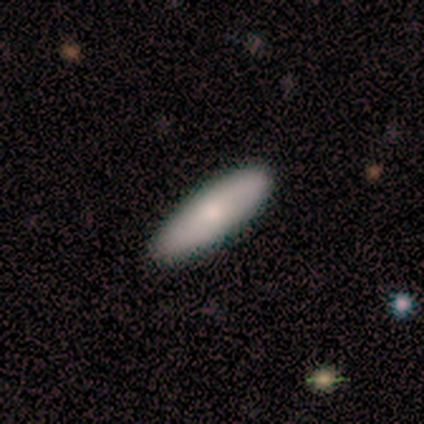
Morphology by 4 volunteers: A smooth galaxy with no disk features (75%) that is in between round and cigar-shaped (67%).

Vote fractions:
- Smooth or featured? smooth: 75% / featured or disk: 25% / star or artifact: 0%
- How rounded? in between: 67% / cigar-shaped: 33% / round: 0%
- Merging? none: 75% / minor disturbance: 25% / major disturbance: 0% / merger: 0%